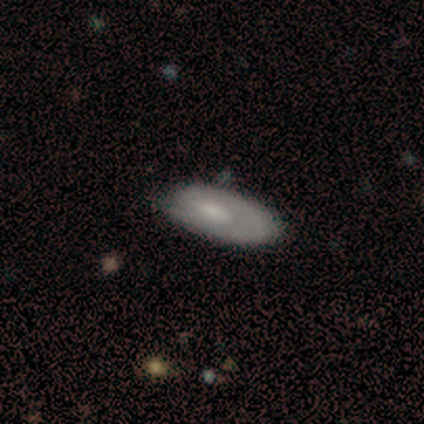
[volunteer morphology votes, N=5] smooth_or_featured: featured or disk (p=0.80) [alt: smooth p=0.20]
disk_edge_on: no (p=1.00)
bar: weak (p=0.50) [tied with: no p=0.50]
has_spiral_arms: yes (p=1.00)
spiral_winding: tight (p=0.75) [alt: medium p=0.25]
spiral_arm_count: 1 (p=0.50) [tied with: can't tell p=0.50]
bulge_size: moderate (p=0.50) [tied with: small p=0.50]
merging: minor disturbance (p=0.60) [alt: none p=0.40]